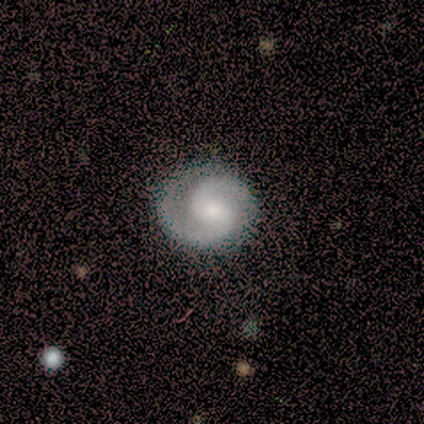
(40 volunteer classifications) Q: Smooth or featured?
A: featured or disk (90%); runner-up: smooth (8%)
Q: Edge-on disk?
A: no (100%)
Q: Bar?
A: weak (61%); runner-up: no (33%)
Q: Spiral arms?
A: yes (97%); runner-up: no (3%)
Q: Spiral winding?
A: medium (54%); runner-up: tight (43%)
Q: Spiral arm count?
A: 2 (100%)
Q: Bulge size?
A: moderate (58%); runner-up: small (28%)
Q: Merging?
A: none (72%); runner-up: minor disturbance (5%)